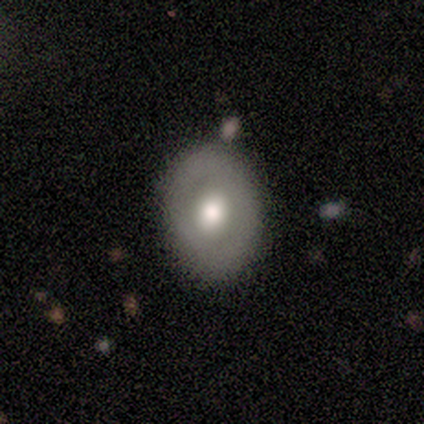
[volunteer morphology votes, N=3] A smooth galaxy with no disk features (100%) that is in between round and cigar-shaped (67%).

Vote fractions:
- Smooth or featured? smooth: 100% / featured or disk: 0% / star or artifact: 0%
- How rounded? in between: 67% / round: 33% / cigar-shaped: 0%
- Merging? none: 100% / minor disturbance: 0% / major disturbance: 0% / merger: 0%